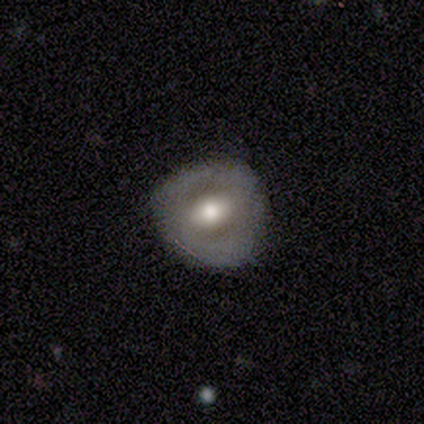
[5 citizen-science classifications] smooth_or_featured: featured or disk (p=0.80) [alt: smooth p=0.20]
disk_edge_on: no (p=1.00)
bar: no (p=0.50) [alt: strong p=0.25]
has_spiral_arms: no (p=1.00)
bulge_size: moderate (p=0.75) [alt: small p=0.25]
merging: none (p=0.80) [alt: major disturbance p=0.20]